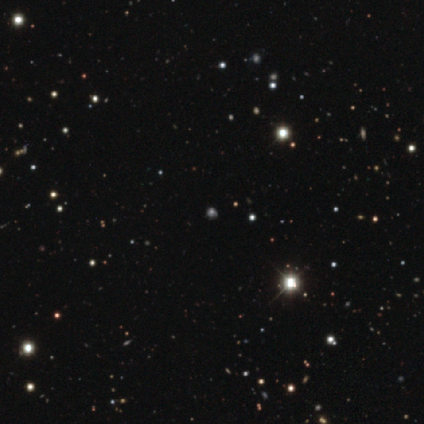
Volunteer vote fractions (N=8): Smooth or featured?
  - star or artifact: 62% *
  - smooth: 38%
  - featured or disk: 0%